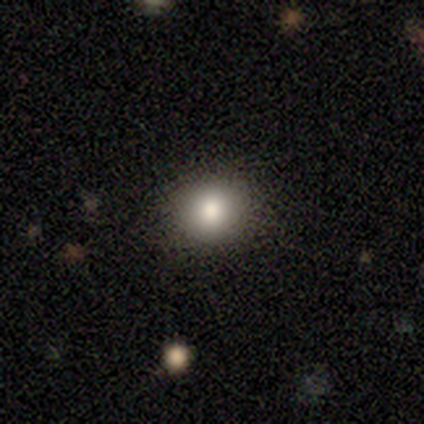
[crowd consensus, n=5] smooth_or_featured: smooth (p=0.80) [alt: star or artifact p=0.20]
how_rounded: round (p=1.00)
merging: none (p=1.00)